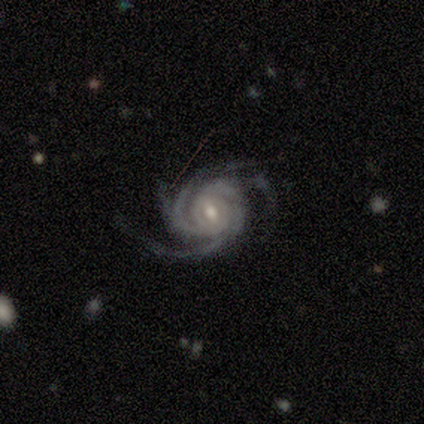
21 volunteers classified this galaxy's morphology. Smooth or featured? featured or disk (100%)
Edge-on disk? no (100%)
Bar? no (52%)
Spiral arms? yes (100%)
Spiral winding? tight (57%)
Spiral arm count? 4 (38%)
Bulge size? moderate (76%)
Merging? none (86%)